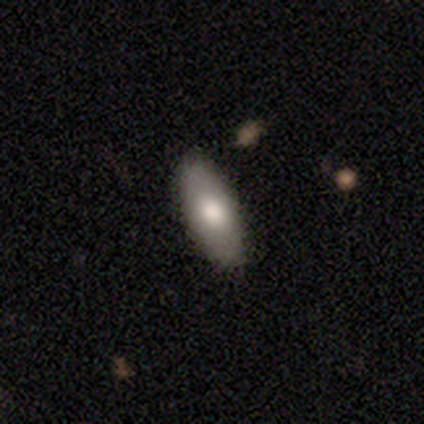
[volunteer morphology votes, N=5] Smooth or featured?
  - smooth: 60% *
  - featured or disk: 40%
  - star or artifact: 0%
How rounded?
  - in between: 67% *
  - cigar-shaped: 33%
  - round: 0%
Merging?
  - none: 60% *
  - minor disturbance: 40%
  - major disturbance: 0%
  - merger: 0%